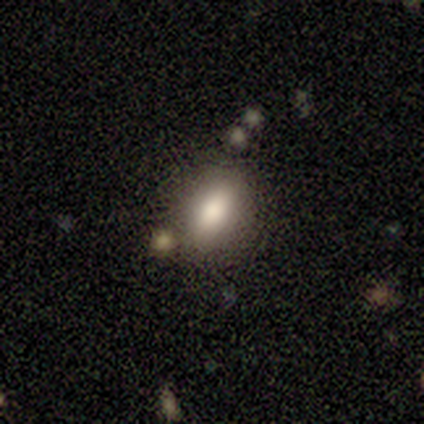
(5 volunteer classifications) smooth-or-featured: smooth: 100% | featured or disk: 0% | star or artifact: 0%
  how-rounded: in between: 100% | round: 0% | cigar-shaped: 0%
  merging: none: 100% | minor disturbance: 0% | major disturbance: 0% | merger: 0%